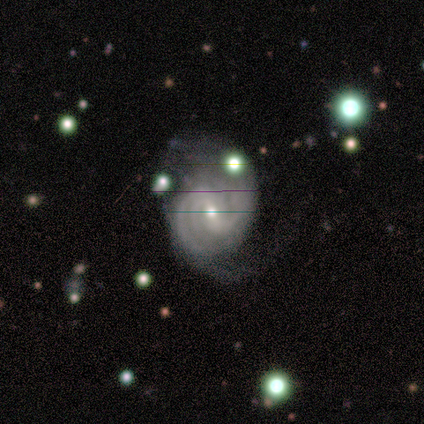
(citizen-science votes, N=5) Q: Smooth or featured?
A: featured or disk (100%)
Q: Edge-on disk?
A: no (100%)
Q: Bar?
A: weak (60%); runner-up: strong (20%)
Q: Spiral arms?
A: yes (100%)
Q: Spiral winding?
A: medium (80%); runner-up: tight (20%)
Q: Spiral arm count?
A: 2 (60%); runner-up: more than 4 (20%)
Q: Bulge size?
A: moderate (80%); runner-up: small (20%)
Q: Merging?
A: minor disturbance (60%); runner-up: none (40%)